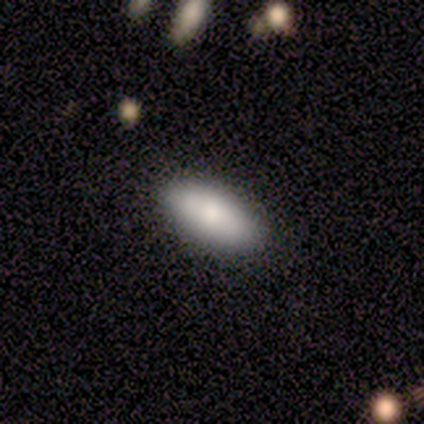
Morphology: type=smooth (100%); roundness=in between (100%); merging=none (100%).